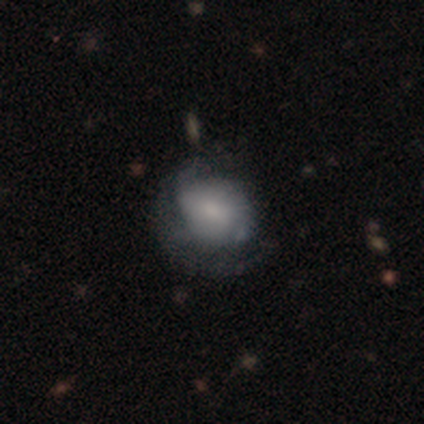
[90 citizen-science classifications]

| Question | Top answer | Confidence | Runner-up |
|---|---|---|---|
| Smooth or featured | featured or disk | 49% | smooth (46%) |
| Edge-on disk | no | 93% | yes (7%) |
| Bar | no | 71% | weak (27%) |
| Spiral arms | yes | 63% | no (37%) |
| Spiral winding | tight | 46% | loose (31%) |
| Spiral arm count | can't tell | 50% | 2 (23%) |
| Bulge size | small | 51% | moderate (32%) |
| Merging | none | 54% | major disturbance (24%) |